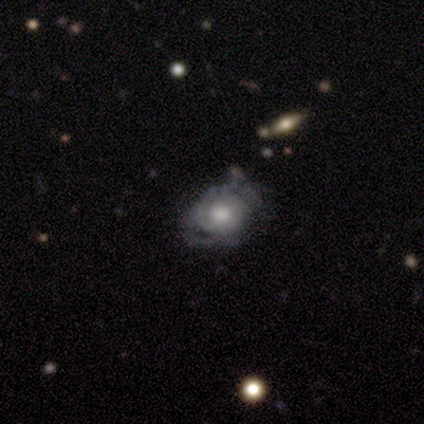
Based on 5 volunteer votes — smooth_or_featured: featured or disk (p=0.60) [alt: smooth p=0.20]
disk_edge_on: no (p=1.00)
bar: no (p=1.00)
has_spiral_arms: yes (p=0.67) [alt: no p=0.33]
spiral_winding: tight (p=0.50) [tied with: loose p=0.50]
spiral_arm_count: 1 (p=0.50) [tied with: can't tell p=0.50]
bulge_size: large (p=0.33) [tied with: moderate p=0.33, small p=0.33]
merging: none (p=0.50) [alt: minor disturbance p=0.25]